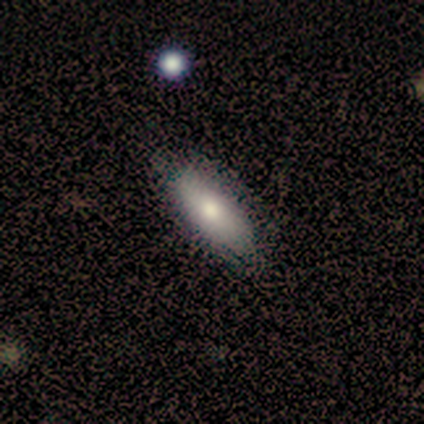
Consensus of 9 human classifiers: Smooth or featured? 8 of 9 (89%) said smooth. How rounded? 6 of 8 (75%) said in between. Merging? 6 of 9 (67%) said none.